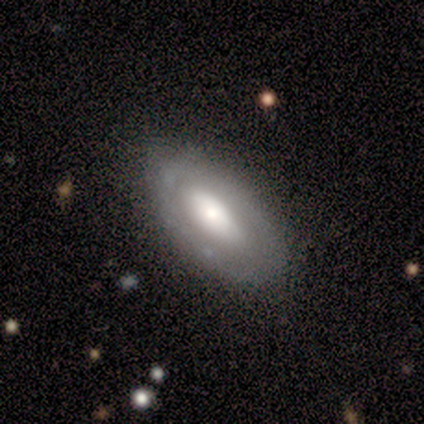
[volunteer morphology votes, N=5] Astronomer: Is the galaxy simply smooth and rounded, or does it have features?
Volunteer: featured or disk — 80%.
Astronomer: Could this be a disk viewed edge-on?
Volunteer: no — 100%.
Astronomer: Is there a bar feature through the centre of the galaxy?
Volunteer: no — 50%.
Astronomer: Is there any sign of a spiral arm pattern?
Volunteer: no — 100%.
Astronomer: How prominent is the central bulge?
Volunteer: moderate — 75%.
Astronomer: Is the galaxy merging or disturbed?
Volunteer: none — 75%.